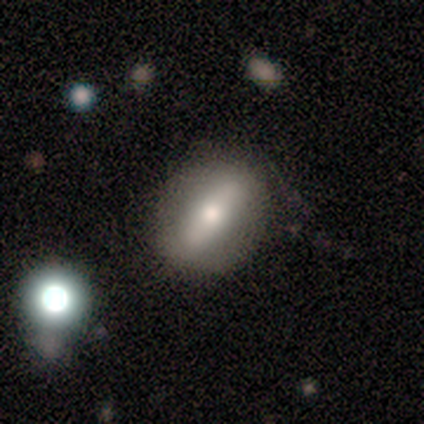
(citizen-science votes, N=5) Smooth or featured? 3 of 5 (60%) said smooth. How rounded? 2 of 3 (67%) said round. Merging? 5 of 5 (100%) said none.